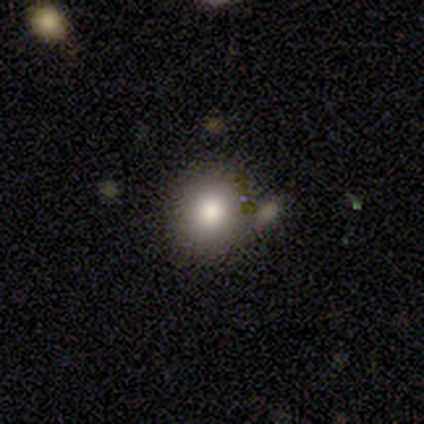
smooth_or_featured: smooth (p=1.00)
how_rounded: round (p=1.00)
merging: none (p=1.00)